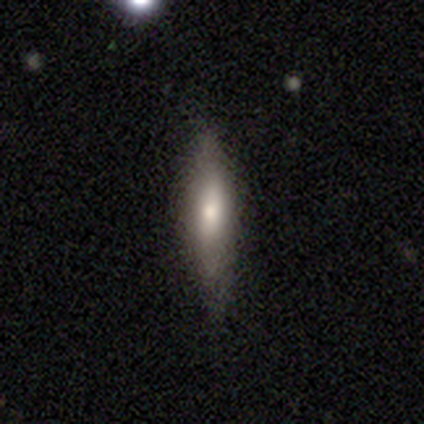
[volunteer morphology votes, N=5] Smooth or featured? 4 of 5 (80%) said smooth. How rounded? 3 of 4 (75%) said cigar-shaped. Merging? 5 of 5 (100%) said none.